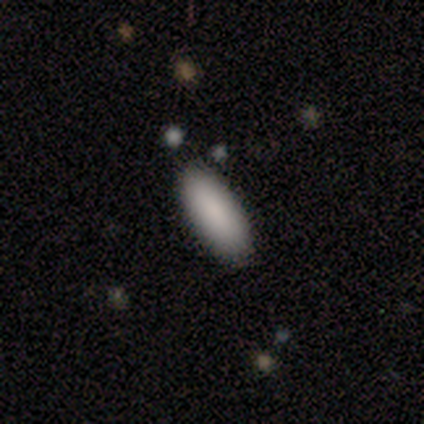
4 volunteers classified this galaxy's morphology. Overall: smooth (100%). How rounded: in between (50%, tied with cigar-shaped). Merging: none (100%).